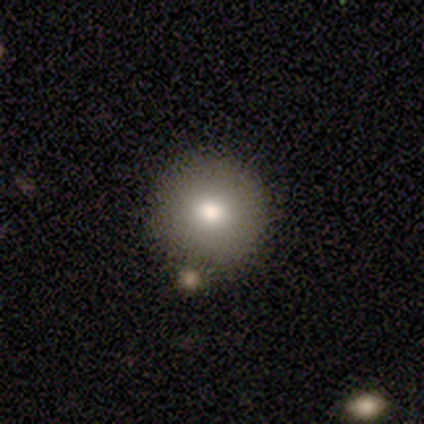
smooth_or_featured: smooth (p=0.65) [alt: featured or disk p=0.17]
how_rounded: round (p=1.00)
merging: none (p=0.73) [alt: minor disturbance p=0.12]